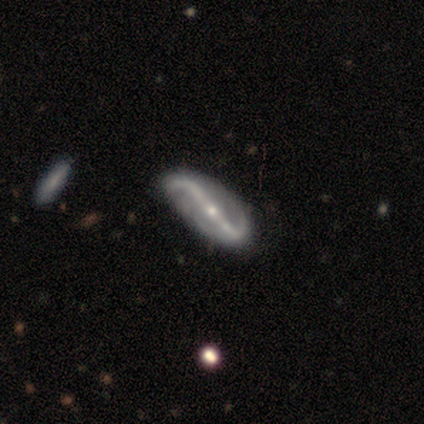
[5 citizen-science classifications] smooth_or_featured: featured or disk (p=0.80) [alt: smooth p=0.20]
disk_edge_on: no (p=1.00)
bar: strong (p=1.00)
has_spiral_arms: yes (p=1.00)
spiral_winding: loose (p=0.50) [alt: tight p=0.25]
spiral_arm_count: 2 (p=0.75) [alt: 1 p=0.25]
bulge_size: small (p=0.50) [alt: large p=0.25]
merging: none (p=0.60) [alt: minor disturbance p=0.40]